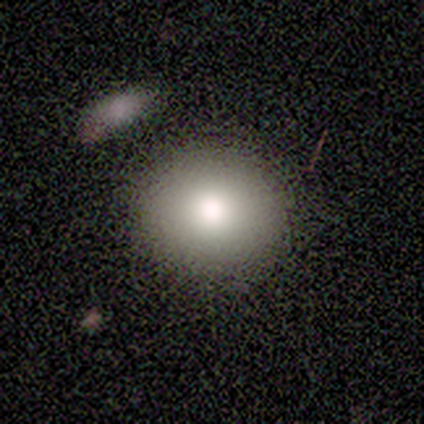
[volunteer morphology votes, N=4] This is clearly a smooth galaxy (100%). How rounded: clearly round (100%). Merging: clearly none (100%).